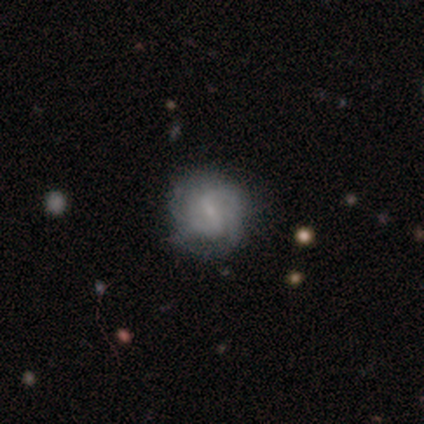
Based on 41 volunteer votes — Overall: featured or disk (51%; smooth 44%). Edge-on disk: no (100%). Bar: weak (62%; strong 29%). Spiral arms: yes (95%). Spiral arm count: 2 (60%; 3 20%). Spiral winding: medium (45%; tight 40%). Bulge size: small (62%; none 33%). Merging: none (77%).